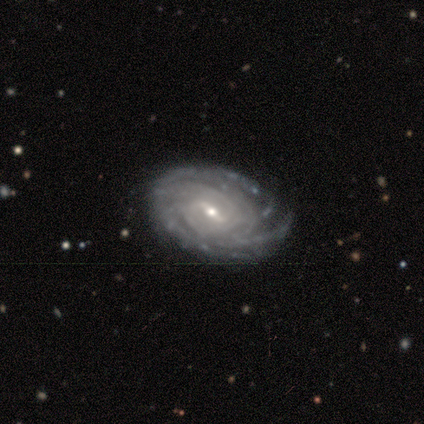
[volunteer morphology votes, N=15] A featured or disk galaxy (87%) with a weak bar (77%), tight (75%) spiral arms (92%) and a small central bulge (77%). Merging: none (87%).